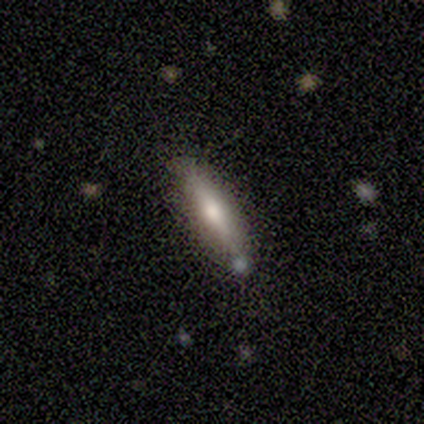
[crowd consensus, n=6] Morphology: type=smooth (50%); roundness=cigar-shaped (100%); merging=none (80%).